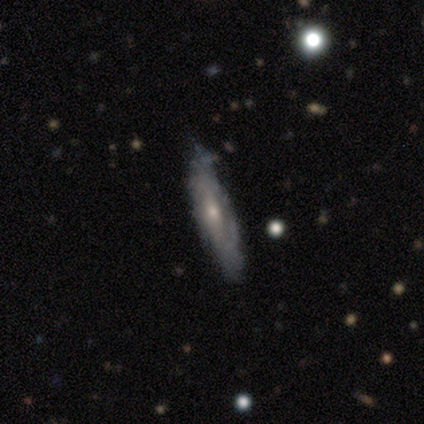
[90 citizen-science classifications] This appears to be a featured or disk galaxy (77%) viewed edge-on (52%) with a rounded central bulge (67%). Merging: none (76%).